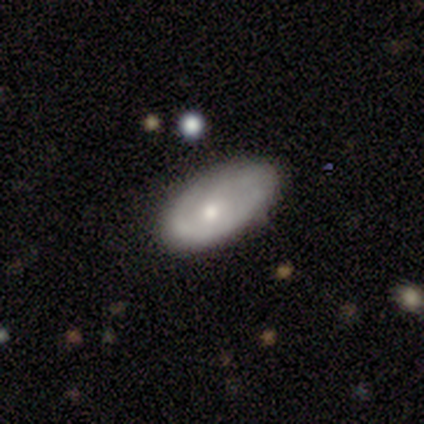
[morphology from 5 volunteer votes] Smooth or featured: smooth — 40% (tied with featured or disk — 40%)
How rounded: in between — 100%
Merging: none — 100%